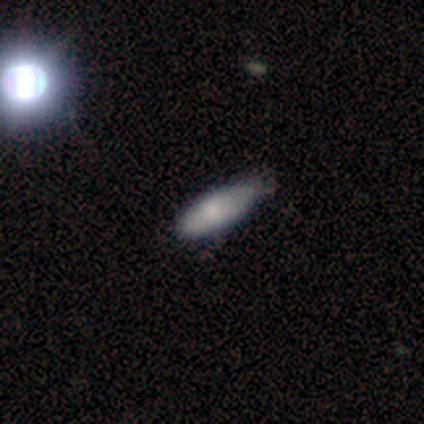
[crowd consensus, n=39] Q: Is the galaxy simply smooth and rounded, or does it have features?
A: smooth — 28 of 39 (72%).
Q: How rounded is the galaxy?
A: in between — 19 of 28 (68%).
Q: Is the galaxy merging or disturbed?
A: none — 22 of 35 (63%).